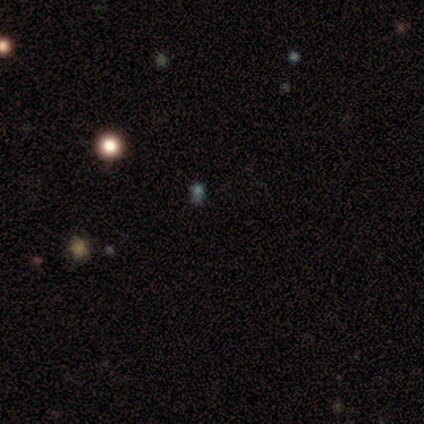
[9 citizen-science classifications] A smooth galaxy with no disk features (56%) that is in between round and cigar-shaped (80%).

Vote fractions:
- Smooth or featured? smooth: 56% / star or artifact: 44% / featured or disk: 0%
- How rounded? in between: 80% / round: 20% / cigar-shaped: 0%
- Merging? none: 80% / minor disturbance: 20% / major disturbance: 0% / merger: 0%